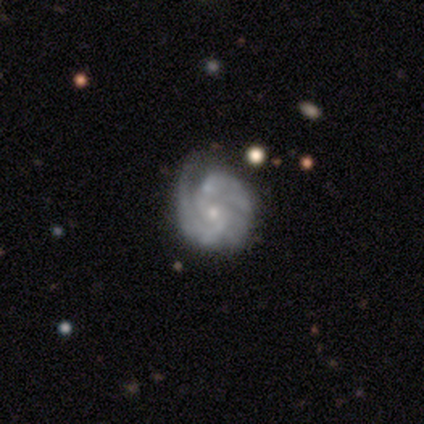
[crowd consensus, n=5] featured or disk 100%, smooth 0%, star or artifact 0%. Down the decision tree: edge-on disk — no (100%); bar — no (60%); spiral arms — yes (80%); spiral arm count — 2 (25%, tied with 3, 4 and can't tell); spiral winding — tight (50%, tied with medium); bulge size — small (80%); merging — none (40%, tied with minor disturbance).